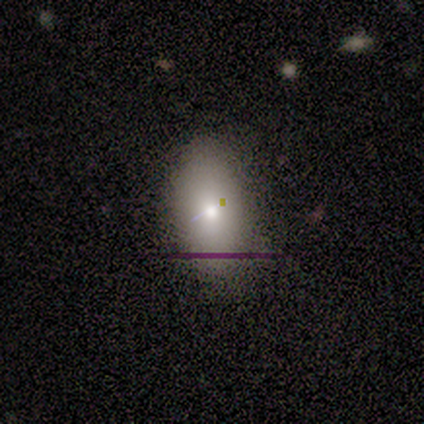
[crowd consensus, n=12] Overall: smooth (83%). How rounded: in between (100%). Merging: none (82%).